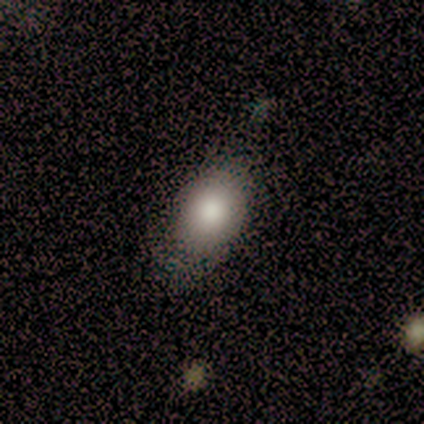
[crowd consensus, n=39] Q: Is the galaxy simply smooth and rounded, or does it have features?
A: smooth — 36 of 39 (92%).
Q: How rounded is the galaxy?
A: in between — 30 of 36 (83%).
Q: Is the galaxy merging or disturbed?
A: none — 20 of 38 (53%).